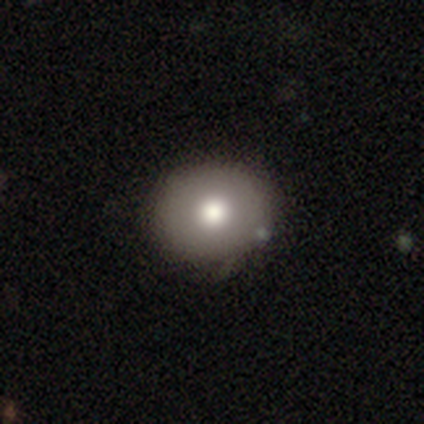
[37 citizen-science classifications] Morphology: type=smooth (68%); roundness=round (80%); merging=none (65%).